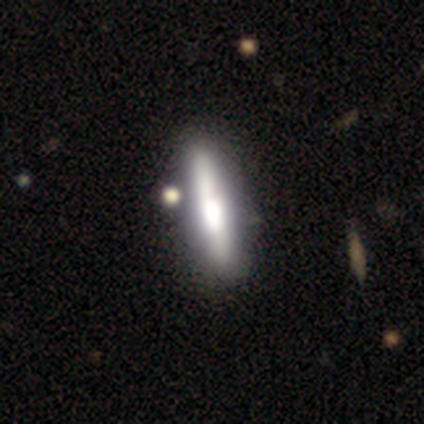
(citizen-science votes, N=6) Smooth or featured: featured or disk — 83% (smooth — 17%)
Edge-on disk: yes — 100%
Edge-on bulge: boxy — 60% (rounded — 40%)
Merging: none — 67% (minor disturbance — 33%)